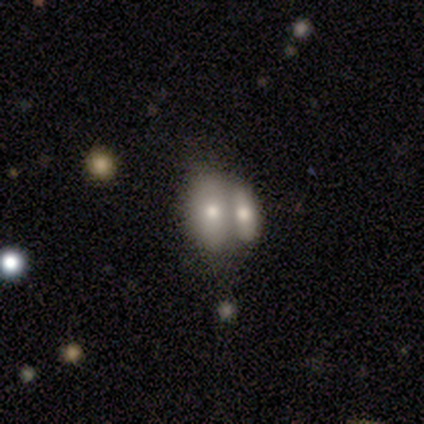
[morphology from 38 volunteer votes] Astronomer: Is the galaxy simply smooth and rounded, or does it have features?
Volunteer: smooth — 61%.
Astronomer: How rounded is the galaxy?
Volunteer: in between — 100%.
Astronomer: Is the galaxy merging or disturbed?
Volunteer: merger — 84%.